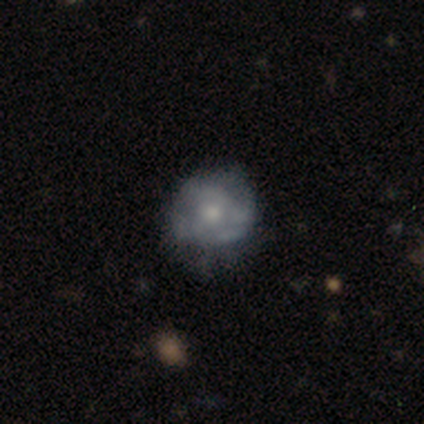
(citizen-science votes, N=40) Smooth or featured?
  - featured or disk: 55% *
  - smooth: 38%
  - star or artifact: 8%
Edge-on disk?
  - no: 100% *
  - yes: 0%
Bar?
  - no: 77% *
  - weak: 23%
  - strong: 0%
Spiral arms?
  - no: 68% *
  - yes: 32%
Bulge size?
  - moderate: 45% * (tied)
  - small: 45% * (tied)
  - large: 5%
  - none: 5%
  - dominant: 0%
Merging?
  - none: 49% *
  - minor disturbance: 30%
  - major disturbance: 22%
  - merger: 0%